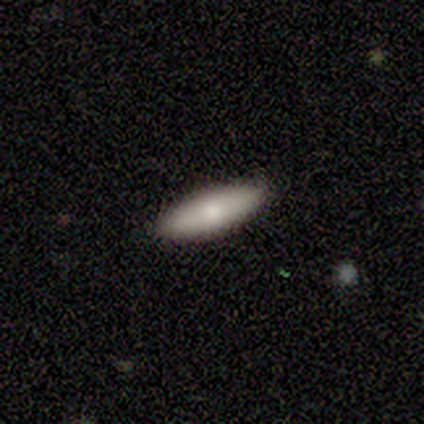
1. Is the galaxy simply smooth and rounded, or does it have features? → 89% smooth, 11% featured or disk, 0% star or artifact.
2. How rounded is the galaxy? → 75% in between, 25% cigar-shaped, 0% round.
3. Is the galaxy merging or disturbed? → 100% none, 0% minor disturbance, 0% major disturbance, 0% merger.